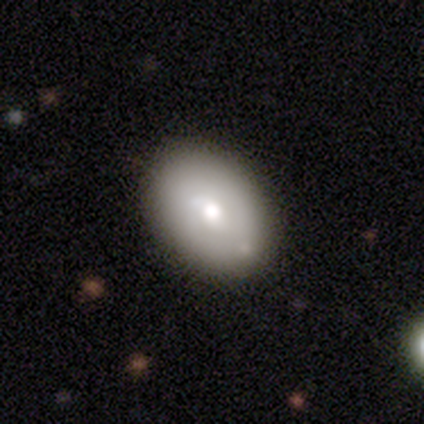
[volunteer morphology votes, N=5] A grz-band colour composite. It shows a featured or disk galaxy (60%) with a strong bar (33%, tied with weak and no), 2 (67%) tight (67%) spiral arms (100%) and a moderate central bulge (100%). Merging: none (75%).